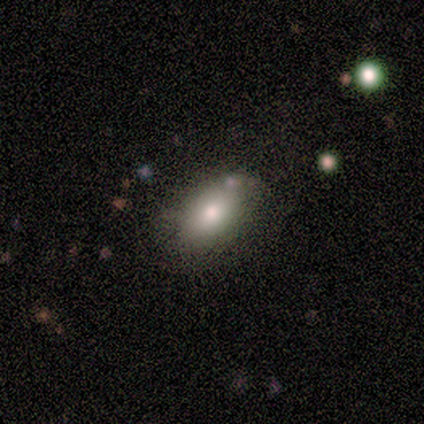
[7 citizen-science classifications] A smooth galaxy with no disk features (86%) that is in between round and cigar-shaped (100%).

Vote fractions:
- Smooth or featured? smooth: 86% / featured or disk: 14% / star or artifact: 0%
- How rounded? in between: 100% / round: 0% / cigar-shaped: 0%
- Merging? none: 57% / minor disturbance: 43% / major disturbance: 0% / merger: 0%